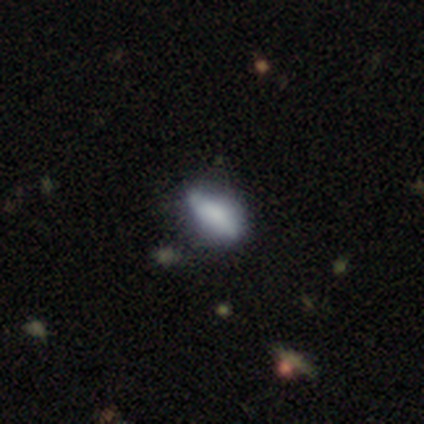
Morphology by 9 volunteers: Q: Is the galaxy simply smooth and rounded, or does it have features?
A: smooth — 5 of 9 (56%).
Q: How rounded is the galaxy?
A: in between — 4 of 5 (80%).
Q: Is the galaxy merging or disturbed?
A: none — 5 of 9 (56%).